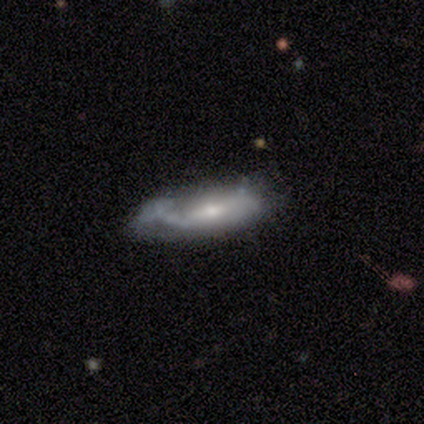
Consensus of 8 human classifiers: Smooth or featured?
  - featured or disk: 62% *
  - smooth: 38%
  - star or artifact: 0%
Edge-on disk?
  - no: 80% *
  - yes: 20%
Bar?
  - no: 75% *
  - weak: 25%
  - strong: 0%
Spiral arms?
  - yes: 75% *
  - no: 25%
Spiral winding?
  - medium: 67% *
  - loose: 33%
  - tight: 0%
Spiral arm count?
  - 1: 67% *
  - 2: 33%
  - 3: 0%
  - 4: 0%
  - more than 4: 0%
  - can't tell: 0%
Bulge size?
  - small: 75% *
  - moderate: 25%
  - dominant: 0%
  - large: 0%
  - none: 0%
Merging?
  - minor disturbance: 50% *
  - none: 38%
  - major disturbance: 12%
  - merger: 0%